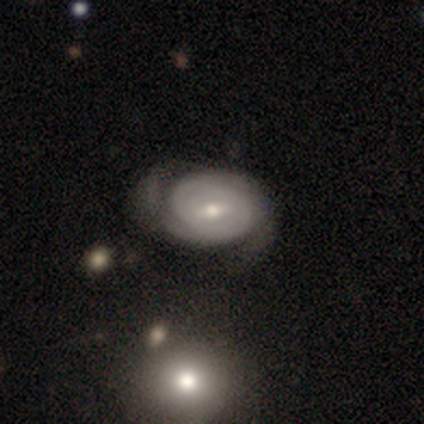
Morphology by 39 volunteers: A featured or disk galaxy (74%) with a weak bar (70%), 2 (60%) tight (80%) spiral arms (93%) and a moderate central bulge (74%).

Vote fractions:
- Smooth or featured? featured or disk: 74% / smooth: 18% / star or artifact: 8%
- Edge-on disk? no: 93% / yes: 7%
- Bar? weak: 70% / no: 19% / strong: 11%
- Spiral arms? yes: 93% / no: 7%
- Spiral winding? tight: 80% / medium: 20% / loose: 0%
- Spiral arm count? 2: 60% / can't tell: 20% / 3: 16% / 1: 4% / 4: 0% / more than 4: 0%
- Bulge size? moderate: 74% / small: 26% / dominant: 0% / large: 0% / none: 0%
- Merging? none: 69% / minor disturbance: 25% / major disturbance: 6% / merger: 0%